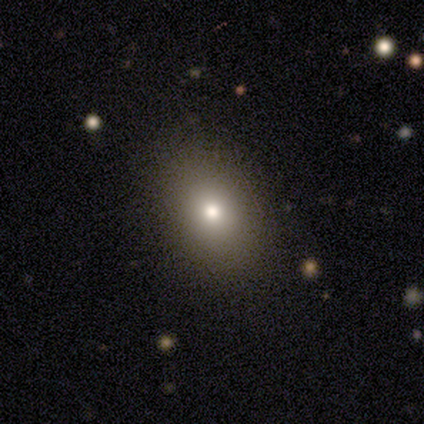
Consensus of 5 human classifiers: Morphology: type=smooth (100%); roundness=in between (80%); merging=none (80%).